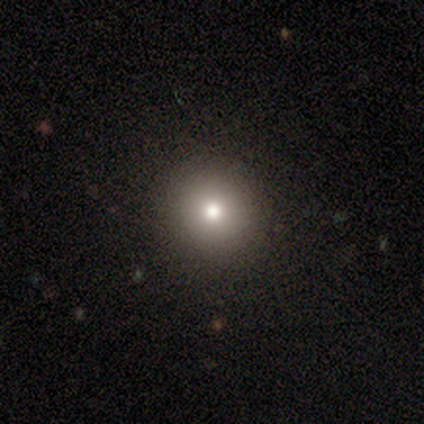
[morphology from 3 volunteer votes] smooth 67%, star or artifact 33%, featured or disk 0%. Down the decision tree: how rounded — round (100%); merging — none (100%).